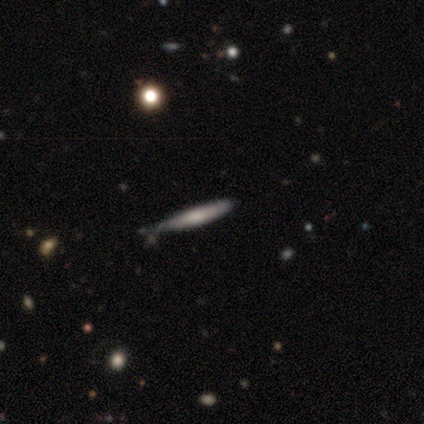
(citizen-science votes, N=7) A smooth galaxy with no disk features (86%) that is cigar-shaped (100%).

Vote fractions:
- Smooth or featured? smooth: 86% / featured or disk: 14% / star or artifact: 0%
- How rounded? cigar-shaped: 100% / round: 0% / in between: 0%
- Merging? none: 86% / minor disturbance: 14% / major disturbance: 0% / merger: 0%